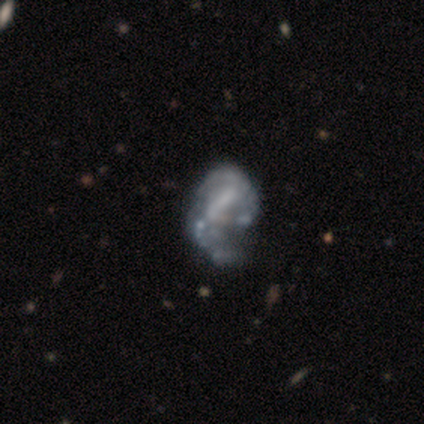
smooth-or-featured: featured or disk: 80% | star or artifact: 20% | smooth: 0%
  disk-edge-on: no: 100% | yes: 0%
    bar: weak: 50% (tied) | no: 50% (tied) | strong: 0%
    has-spiral-arms: yes: 75% | no: 25%
      spiral-winding: medium: 67% | tight: 33% | loose: 0%
      spiral-arm-count: 2: 100% | 1: 0% | 3: 0% | 4: 0% | more than 4: 0% | can't tell: 0%
    bulge-size: none: 75% | small: 25% | dominant: 0% | large: 0% | moderate: 0%
  merging: none: 50% (tied) | major disturbance: 50% (tied) | minor disturbance: 0% | merger: 0%